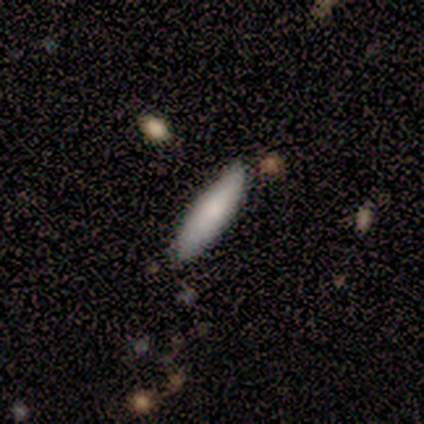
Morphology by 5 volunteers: Overall: smooth (80%). How rounded: cigar-shaped (100%). Merging: none (100%).